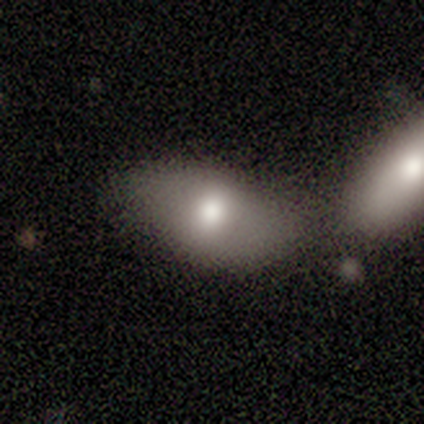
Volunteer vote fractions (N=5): Overall: smooth (80%). How rounded: in between (100%). Merging: merger (100%).